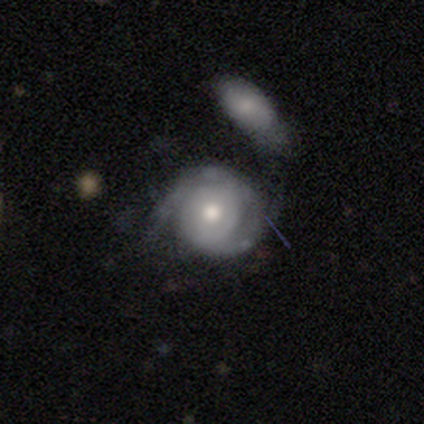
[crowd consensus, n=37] A featured or disk galaxy (76%) with no bar (73%), 2 (61%) tight (70%) spiral arms (88%) and a moderate central bulge (88%).

Vote fractions:
- Smooth or featured? featured or disk: 76% / smooth: 22% / star or artifact: 3%
- Edge-on disk? no: 93% / yes: 7%
- Bar? no: 73% / weak: 23% / strong: 4%
- Spiral arms? yes: 88% / no: 12%
- Spiral winding? tight: 70% / medium: 22% / loose: 9%
- Spiral arm count? 2: 61% / can't tell: 26% / 1: 9% / 3: 4% / 4: 0% / more than 4: 0%
- Bulge size? moderate: 88% / dominant: 4% / large: 4% / small: 4% / none: 0%
- Merging? merger: 39% / major disturbance: 25% / none: 19% / minor disturbance: 17%